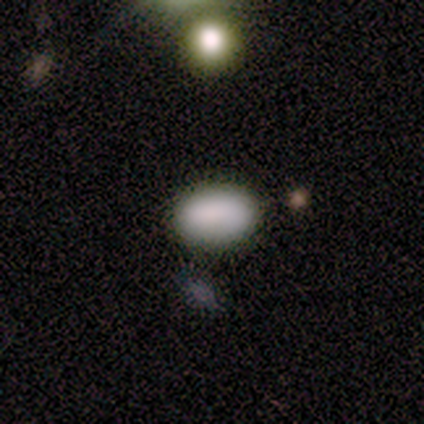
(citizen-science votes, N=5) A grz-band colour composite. It shows a smooth galaxy with no disk features (100%) that is in between round and cigar-shaped (100%). Merging: none (100%).